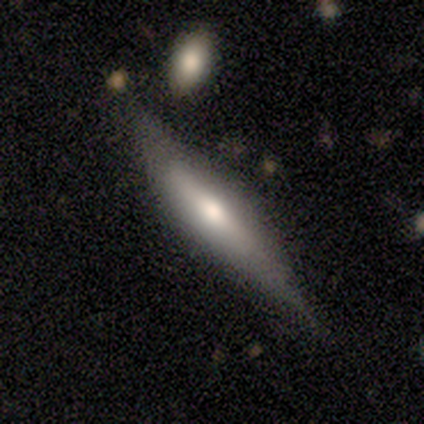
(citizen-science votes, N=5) Smooth or featured? 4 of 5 (80%) said featured or disk. Edge-on disk? 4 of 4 (100%) said yes. Edge-on bulge? 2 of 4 (50%) said rounded. Merging? 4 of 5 (80%) said none.